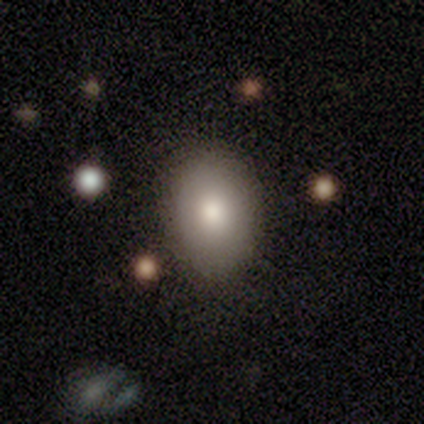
This appears to be a smooth galaxy with no disk features (90%) that is in between round and cigar-shaped (72%). Merging: none (54%).